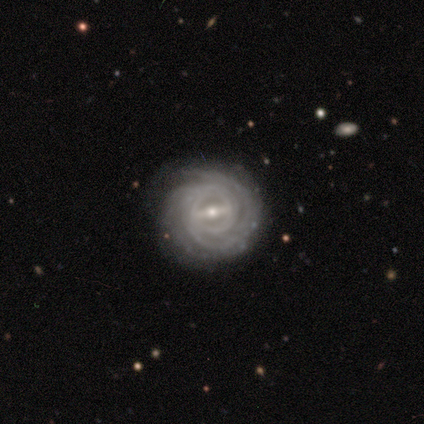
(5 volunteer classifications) A featured or disk galaxy (100%) with a strong bar (80%), 2 (60%) tight (100%) spiral arms (100%) and a small central bulge (80%). Merging: none (80%).